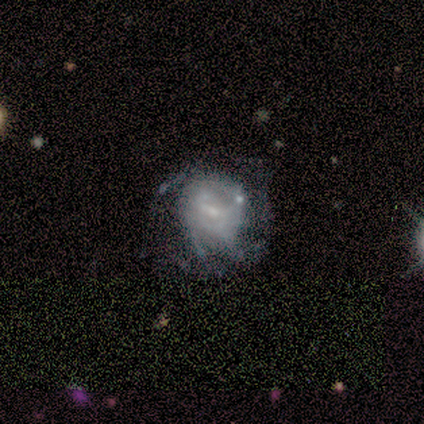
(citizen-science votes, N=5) A featured or disk galaxy (80%) with a weak bar (75%), 3 (50%, tied with can't tell) medium (100%) spiral arms (50%, tied with no) and a small central bulge (75%). Merging: none (80%).